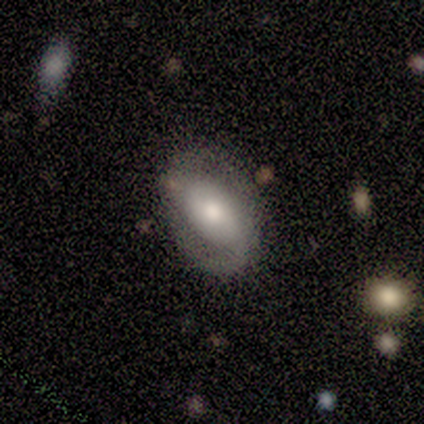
Morphology: type=featured or disk (80%); edge-on=no (100%); bar=no (75%); spiral arms=yes (75%); winding=tight (67%); arm count=2 (67%); bulge=moderate (75%); merging=none (100%).